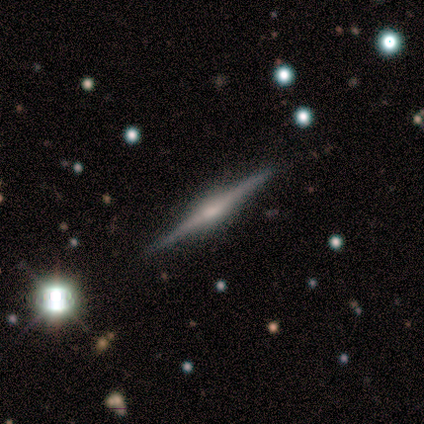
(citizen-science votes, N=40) Q: Smooth or featured?
A: featured or disk (80%); runner-up: star or artifact (15%)
Q: Edge-on disk?
A: yes (100%)
Q: Edge-on bulge?
A: rounded (53%); runner-up: boxy (31%)
Q: Merging?
A: none (82%); runner-up: minor disturbance (12%)